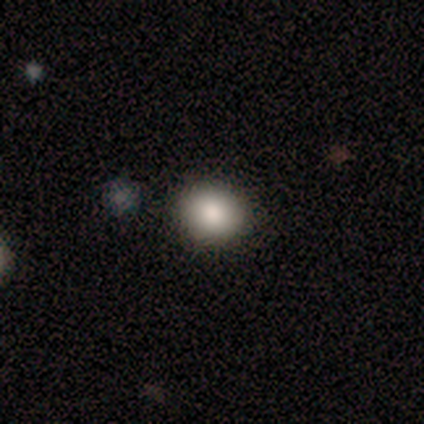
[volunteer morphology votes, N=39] Smooth or featured: smooth — 85% (star or artifact — 10%)
How rounded: round — 85% (in between — 15%)
Merging: none — 91% (major disturbance — 6%)